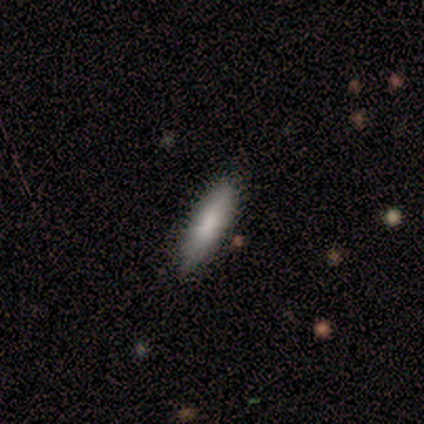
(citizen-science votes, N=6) Smooth or featured: smooth — 83% (star or artifact — 17%)
How rounded: in between — 60% (cigar-shaped — 40%)
Merging: none — 80% (minor disturbance — 20%)